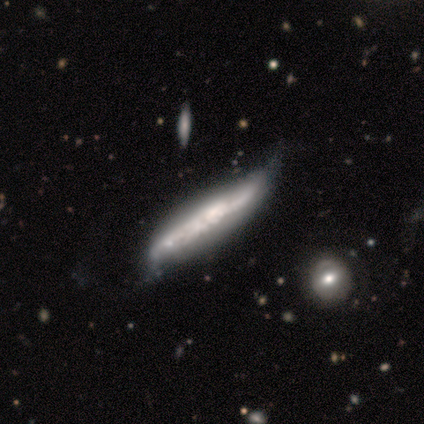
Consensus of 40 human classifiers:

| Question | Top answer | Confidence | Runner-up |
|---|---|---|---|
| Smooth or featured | featured or disk | 88% | smooth (12%) |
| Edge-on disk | yes | 74% | no (26%) |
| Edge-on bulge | none | 62% | boxy (19%) |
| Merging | none | 25% | major disturbance (22%) |